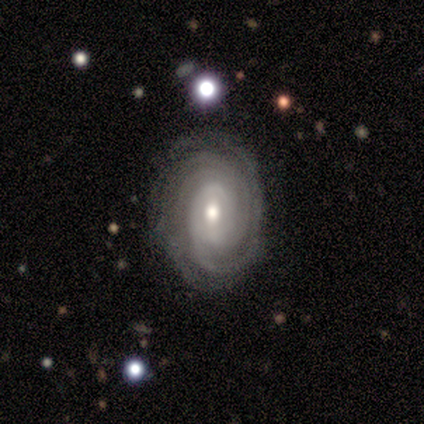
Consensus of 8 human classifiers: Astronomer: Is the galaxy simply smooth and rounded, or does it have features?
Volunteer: featured or disk — 88%.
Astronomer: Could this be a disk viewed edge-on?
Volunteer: no — 100%.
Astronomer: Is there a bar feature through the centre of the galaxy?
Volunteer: no — 71%.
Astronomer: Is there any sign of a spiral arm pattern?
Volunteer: yes — 86%.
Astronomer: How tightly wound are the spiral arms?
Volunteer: tight — 67%.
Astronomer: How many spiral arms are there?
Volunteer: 2 — 33%, tied with 4 and can't tell at 33%.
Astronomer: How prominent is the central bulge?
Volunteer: small — 43% (runner-up: moderate, 29%).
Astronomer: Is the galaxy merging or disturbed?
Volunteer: none — 75%.